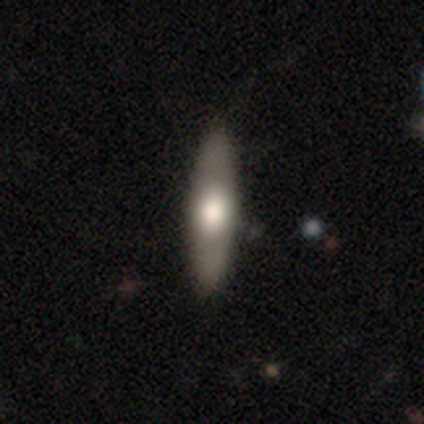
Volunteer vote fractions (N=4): Smooth or featured? smooth (75%)
How rounded? cigar-shaped (100%)
Merging? none (100%)